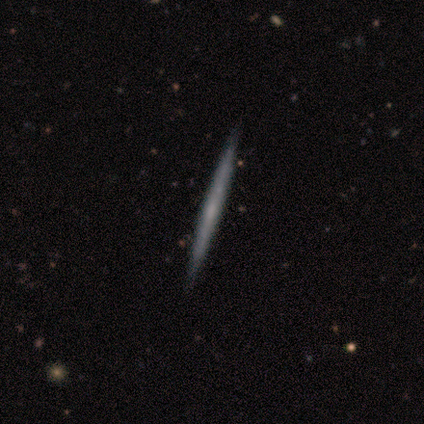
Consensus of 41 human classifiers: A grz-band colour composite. It shows a featured or disk galaxy (68%) viewed edge-on (100%) with no central bulge (86%). Merging: none (67%).